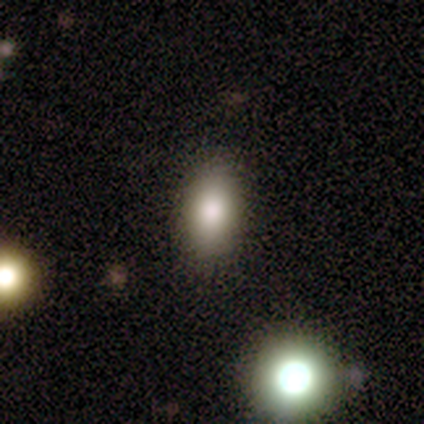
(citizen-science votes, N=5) smooth 100%, featured or disk 0%, star or artifact 0%. Down the decision tree: how rounded — in between (100%); merging — none (100%).